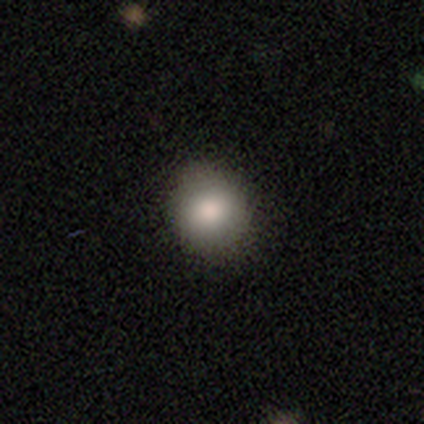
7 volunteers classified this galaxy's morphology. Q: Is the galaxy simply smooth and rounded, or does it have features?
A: smooth — 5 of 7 (71%).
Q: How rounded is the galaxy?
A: round — 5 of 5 (100%).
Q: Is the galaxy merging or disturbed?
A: none — 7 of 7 (100%).